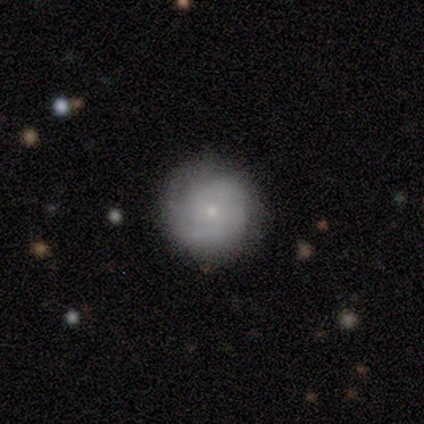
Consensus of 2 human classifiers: Volunteers were most divided on "smooth or featured" (2-way tie): smooth: 50%, featured or disk: 50%, star or artifact: 0%. More confident: how rounded — round (100%); merging — none (100%).